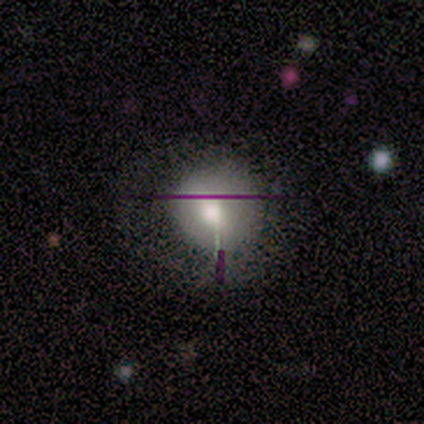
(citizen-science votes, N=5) This is likely a smooth galaxy (60%). How rounded: clearly round (100%). Merging: likely none (75%).